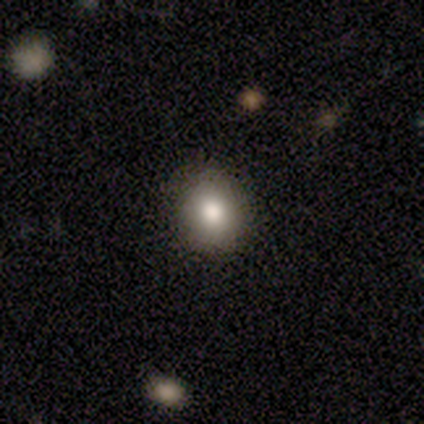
smooth 100%, featured or disk 0%, star or artifact 0%. Down the decision tree: how rounded — round (60%); merging — none (100%).